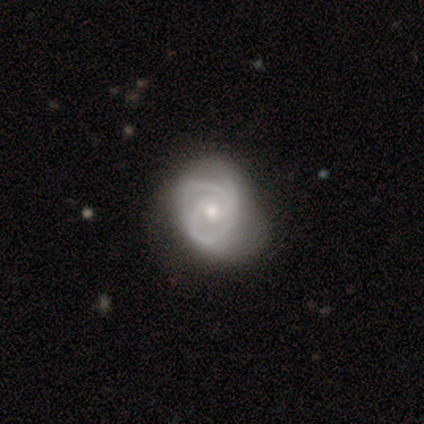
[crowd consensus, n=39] Smooth or featured? 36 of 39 (92%) said featured or disk. Edge-on disk? 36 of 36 (100%) said no. Bar? 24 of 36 (67%) said no. Spiral arms? 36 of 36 (100%) said yes. Spiral winding? 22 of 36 (61%) said tight. Spiral arm count? 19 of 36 (53%) said 2. Bulge size? 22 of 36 (61%) said moderate. Merging? 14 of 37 (38%) said none.